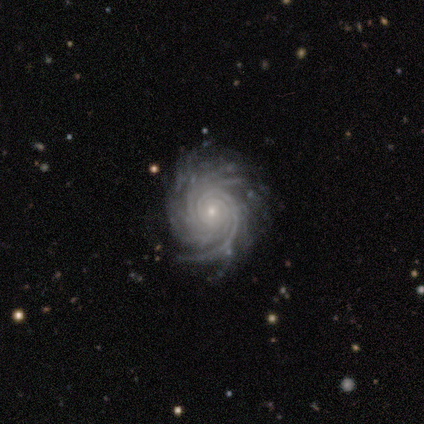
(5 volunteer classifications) Volunteers were most divided on "spiral arm count" (4-way tie): 1: 25%, 2: 25%, 3: 25%, 4: 25%, more than 4: 0%, can't tell: 0%. More confident: edge-on disk — no (100%); spiral arms — yes (100%); bulge size — small (100%); smooth or featured — featured or disk (80%); spiral winding — tight (75%); merging — none (75%); bar — no (50%).